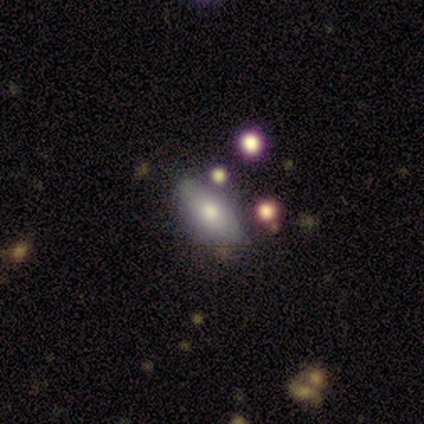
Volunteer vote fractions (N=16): Smooth or featured? smooth (69%)
How rounded? in between (73%)
Merging? none (81%)